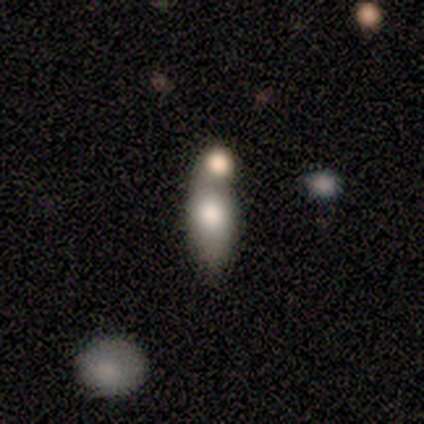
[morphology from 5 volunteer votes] Smooth or featured?
  - smooth: 60% *
  - featured or disk: 40%
  - star or artifact: 0%
How rounded?
  - in between: 67% *
  - cigar-shaped: 33%
  - round: 0%
Merging?
  - merger: 60% *
  - none: 40%
  - minor disturbance: 0%
  - major disturbance: 0%